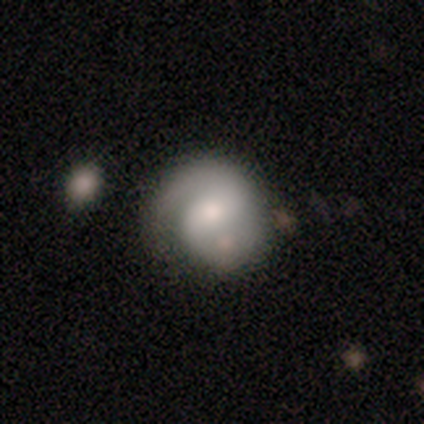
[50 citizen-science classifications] This appears to be a featured or disk galaxy (76%) with no bar (43%), 2 (88%) medium (44%) spiral arms (92%) and a moderate central bulge (46%). Merging: none (61%).